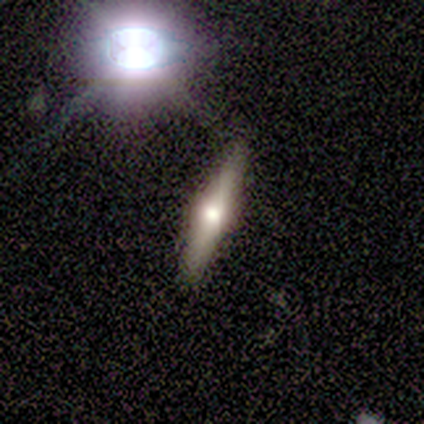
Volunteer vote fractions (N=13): Q: Smooth or featured?
A: smooth (46%); tied with: featured or disk (46%)
Q: How rounded?
A: cigar-shaped (100%)
Q: Merging?
A: none (92%); runner-up: minor disturbance (8%)